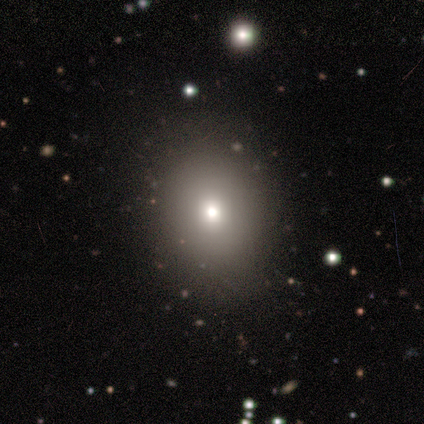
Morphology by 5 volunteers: smooth_or_featured: smooth (p=0.60) [alt: star or artifact p=0.40]
how_rounded: round (p=1.00)
merging: none (p=0.67) [alt: minor disturbance p=0.33]